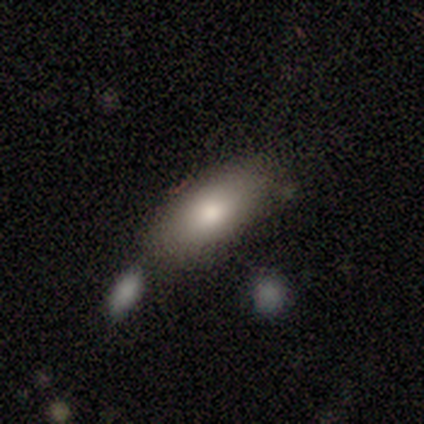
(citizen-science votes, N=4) Volunteers were most divided on "smooth or featured" (2-way tie): smooth: 50%, featured or disk: 50%, star or artifact: 0%. More confident: how rounded — in between (100%); merging — none (75%).